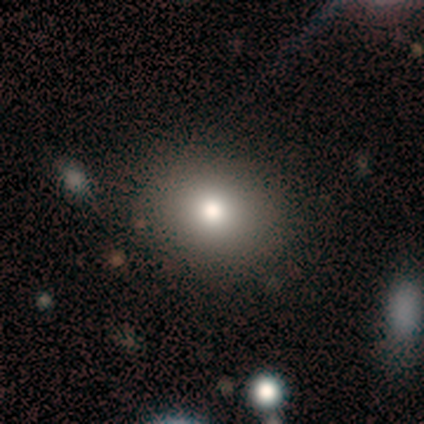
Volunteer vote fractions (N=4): Morphology: type=featured or disk (75%); edge-on=no (100%); bar=no (67%); spiral arms=no (67%); bulge=dominant (33%, tied with large and moderate); merging=none (75%).